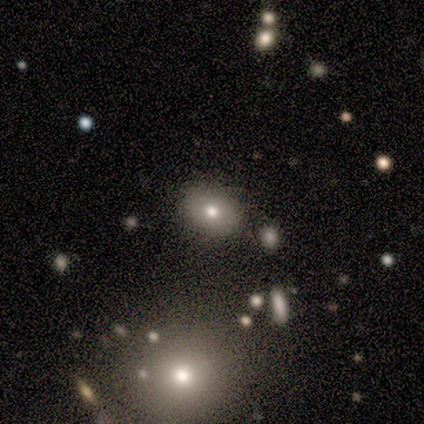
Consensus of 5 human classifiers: Volunteers were most divided on "how rounded": in between: 75%, round: 25%, cigar-shaped: 0%. More confident: merging — none (100%); smooth or featured — smooth (80%).